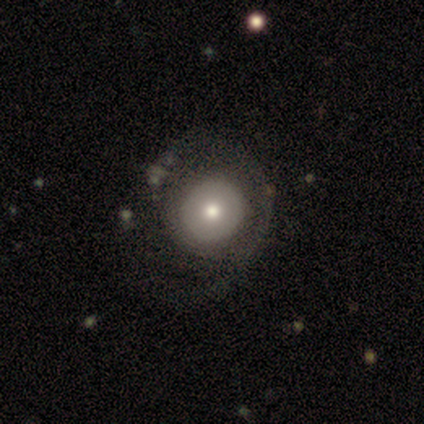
Smooth or featured?
  - smooth: 60% *
  - featured or disk: 40%
  - star or artifact: 0%
How rounded?
  - round: 100% *
  - in between: 0%
  - cigar-shaped: 0%
Merging?
  - major disturbance: 60% *
  - none: 20%
  - minor disturbance: 20%
  - merger: 0%